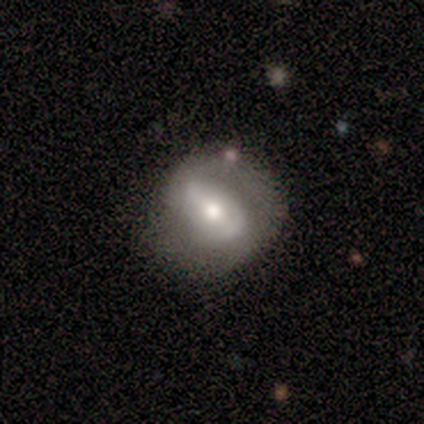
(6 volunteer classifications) Smooth or featured? featured or disk (83%)
Edge-on disk? no (100%)
Bar? weak (80%)
Spiral arms? yes (60%)
Spiral winding? loose (67%)
Spiral arm count? 2 (67%)
Bulge size? moderate (80%)
Merging? none (100%)